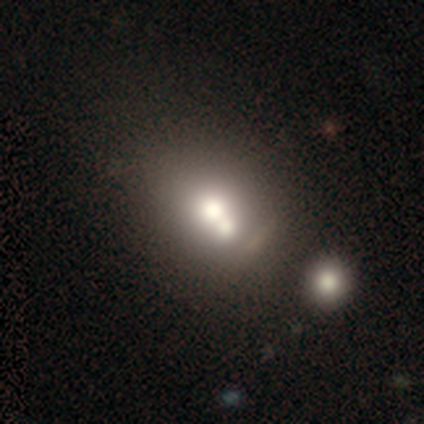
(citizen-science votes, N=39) This appears to be a smooth galaxy with no disk features (51%) that is round (65%). Merging: merger (43%).